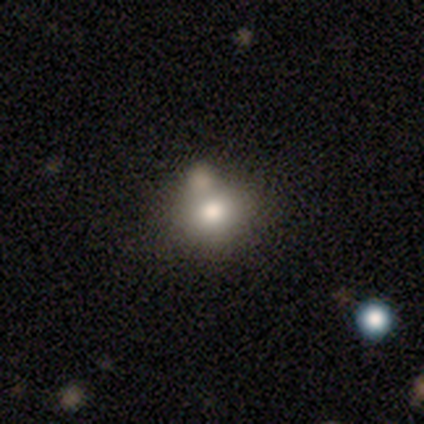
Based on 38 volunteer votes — Overall: smooth (74%). How rounded: round (75%). Merging: none (53%; merger 29%).